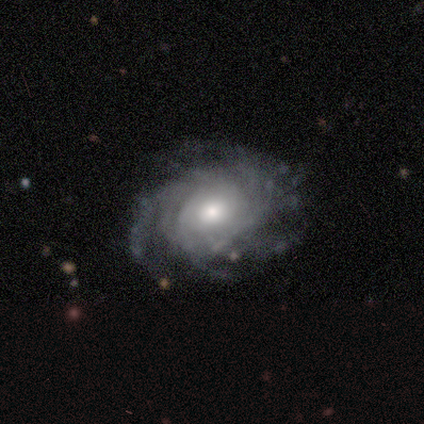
Volunteers were most divided on "spiral winding" (2-way tie): tight: 50%, medium: 50%, loose: 0%. More confident: smooth or featured — featured or disk (100%); edge-on disk — no (100%); spiral arms — yes (100%); merging — none (100%); bar — no (50%); spiral arm count — can't tell (50%); bulge size — small (50%).